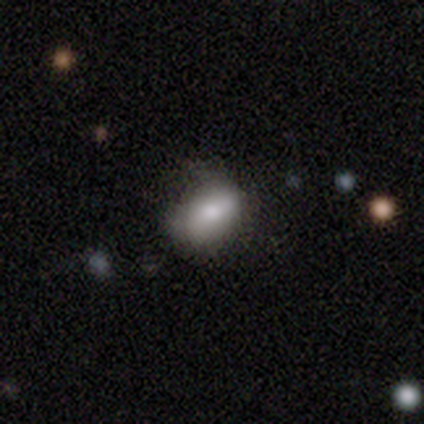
smooth_or_featured: smooth (p=1.00)
how_rounded: in between (p=1.00)
merging: minor disturbance (p=0.40) [tied with: major disturbance p=0.40]